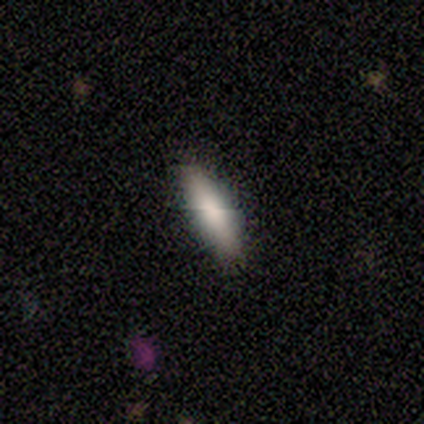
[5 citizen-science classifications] Smooth or featured? smooth (80%)
How rounded? in between (75%)
Merging? none (100%)